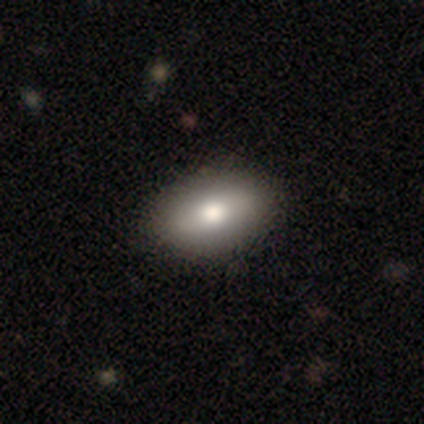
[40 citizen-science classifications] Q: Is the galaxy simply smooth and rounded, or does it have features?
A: smooth — 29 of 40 (72%).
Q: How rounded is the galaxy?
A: in between — 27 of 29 (93%).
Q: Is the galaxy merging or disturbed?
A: none — 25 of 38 (66%).